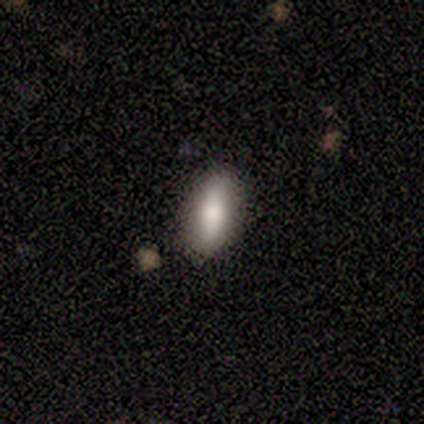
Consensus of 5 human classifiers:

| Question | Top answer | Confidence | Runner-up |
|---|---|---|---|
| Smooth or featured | smooth | 100% | — |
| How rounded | in between | 60% | cigar-shaped (40%) |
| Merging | none | 60% | minor disturbance (40%) |